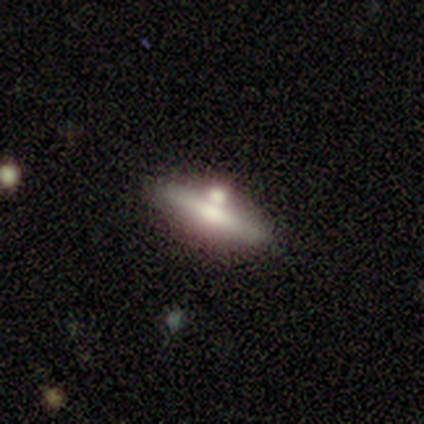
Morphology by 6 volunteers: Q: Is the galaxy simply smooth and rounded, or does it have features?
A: featured or disk — 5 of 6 (83%).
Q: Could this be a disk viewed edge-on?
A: yes — 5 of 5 (100%).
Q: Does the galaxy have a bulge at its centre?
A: rounded — 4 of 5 (80%).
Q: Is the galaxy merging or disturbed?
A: none — 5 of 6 (83%).